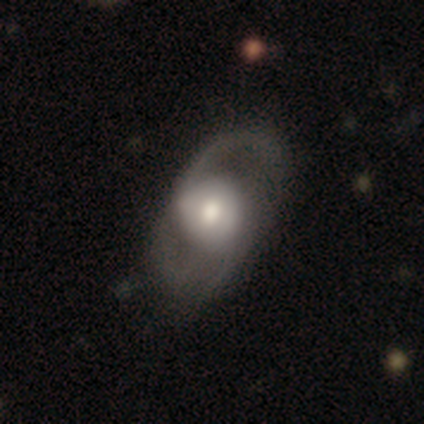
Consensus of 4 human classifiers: Smooth or featured? featured or disk (75%)
Edge-on disk? no (100%)
Bar? no (67%)
Spiral arms? yes (67%)
Spiral winding? medium (100%)
Spiral arm count? 2 (100%)
Bulge size? large (33%, tied with moderate and small)
Merging? none (75%)